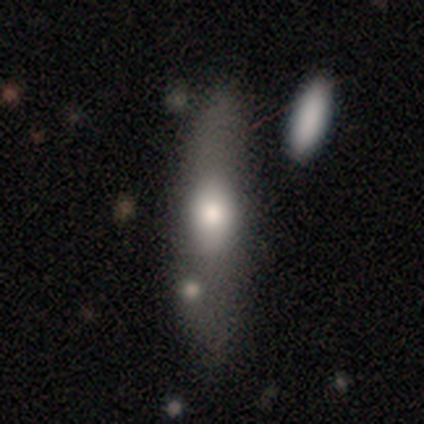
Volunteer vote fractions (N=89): Morphology: type=smooth (72%); roundness=cigar-shaped (58%); merging=none (57%).